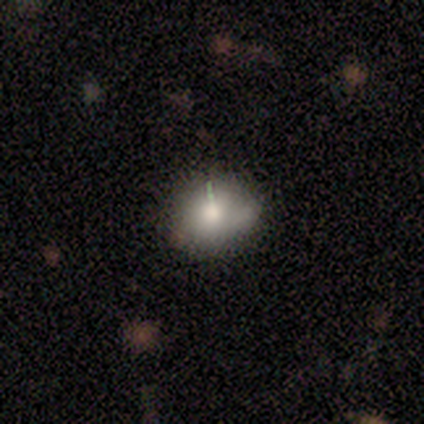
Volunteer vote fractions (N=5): Volunteers were most divided on "merging": none: 60%, minor disturbance: 20%, major disturbance: 20%, merger: 0%. More confident: smooth or featured — smooth (100%); how rounded — round (80%).